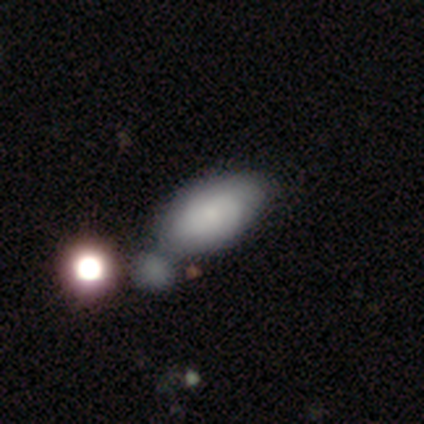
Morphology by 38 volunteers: smooth 66%, featured or disk 26%, star or artifact 8%. Down the decision tree: how rounded — in between (88%); merging — merger (46%).